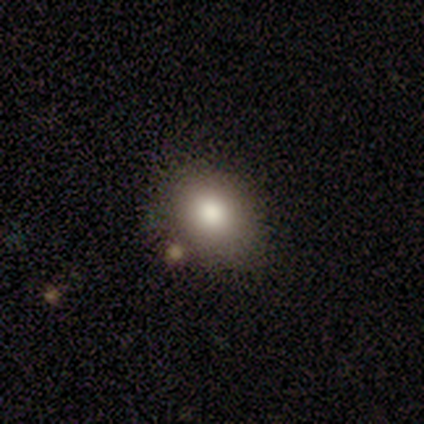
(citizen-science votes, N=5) Q: Smooth or featured?
A: smooth (80%); runner-up: star or artifact (20%)
Q: How rounded?
A: in between (75%); runner-up: round (25%)
Q: Merging?
A: none (100%)